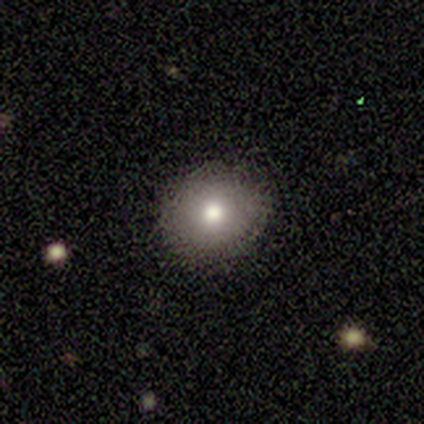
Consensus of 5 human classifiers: Smooth or featured: smooth — 100%
How rounded: round — 80% (in between — 20%)
Merging: none — 100%